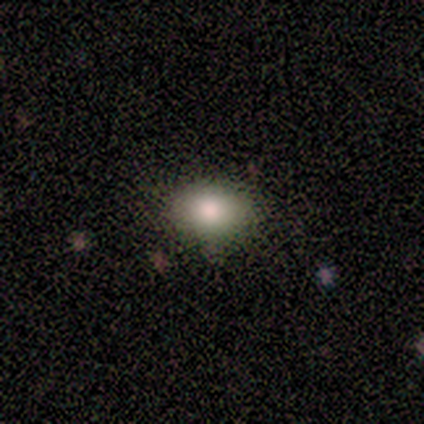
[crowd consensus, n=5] Overall: smooth (100%). How rounded: round (60%; in between 40%). Merging: none (60%; major disturbance 20%).